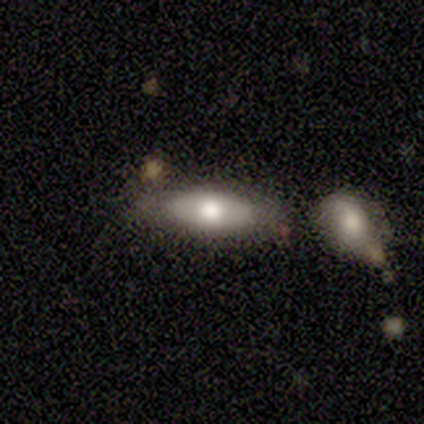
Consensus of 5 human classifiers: Smooth or featured?
  - smooth: 60% *
  - featured or disk: 40%
  - star or artifact: 0%
How rounded?
  - cigar-shaped: 67% *
  - in between: 33%
  - round: 0%
Merging?
  - none: 60% *
  - minor disturbance: 20%
  - merger: 20%
  - major disturbance: 0%